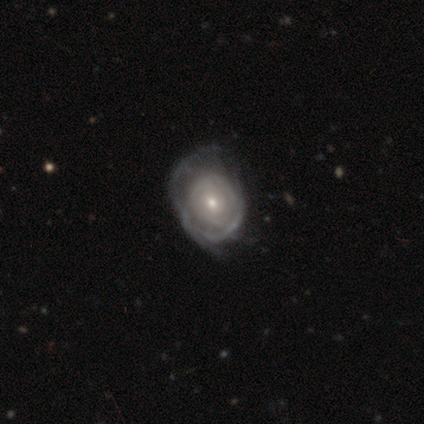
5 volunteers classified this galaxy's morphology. featured or disk 100%, smooth 0%, star or artifact 0%. Down the decision tree: edge-on disk — no (100%); bar — no (80%); spiral arms — yes (80%); spiral arm count — 3 (50%); spiral winding — tight (50%, tied with medium); bulge size — small (80%); merging — none (60%).